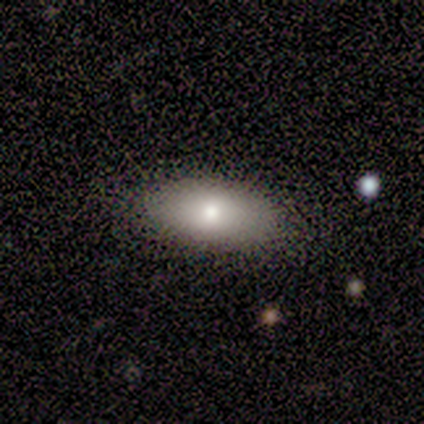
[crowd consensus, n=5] This appears to be a smooth galaxy with no disk features (100%) that is in between round and cigar-shaped (100%). Merging: none (100%).